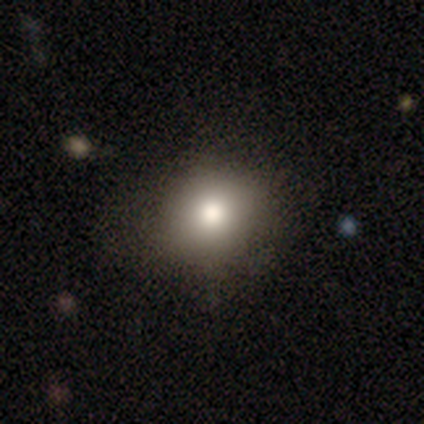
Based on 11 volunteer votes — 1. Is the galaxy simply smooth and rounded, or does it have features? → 100% smooth, 0% featured or disk, 0% star or artifact.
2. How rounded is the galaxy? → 82% round, 18% in between, 0% cigar-shaped.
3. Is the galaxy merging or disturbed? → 91% none, 9% major disturbance, 0% minor disturbance, 0% merger.